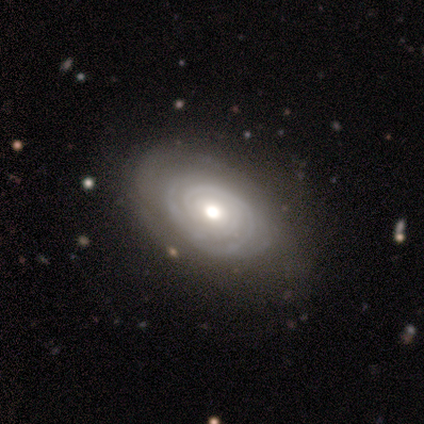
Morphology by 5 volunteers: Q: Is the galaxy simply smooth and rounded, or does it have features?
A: featured or disk — 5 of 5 (100%).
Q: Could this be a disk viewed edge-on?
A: no — 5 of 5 (100%).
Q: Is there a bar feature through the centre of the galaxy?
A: no — 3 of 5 (60%).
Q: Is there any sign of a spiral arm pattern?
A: yes — 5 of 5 (100%).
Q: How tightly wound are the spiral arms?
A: tight — 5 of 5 (100%).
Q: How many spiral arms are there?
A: can't tell — 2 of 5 (40%).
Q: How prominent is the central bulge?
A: moderate — 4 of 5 (80%).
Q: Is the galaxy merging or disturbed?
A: none — 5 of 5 (100%).